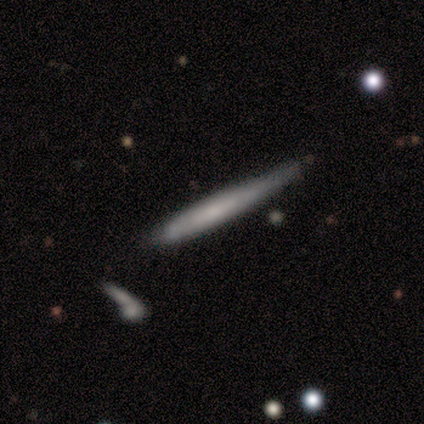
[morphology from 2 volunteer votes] Smooth or featured? smooth (50%, tied with featured or disk)
How rounded? cigar-shaped (100%)
Merging? minor disturbance (100%)